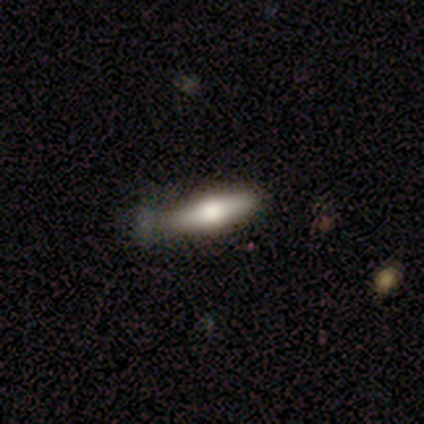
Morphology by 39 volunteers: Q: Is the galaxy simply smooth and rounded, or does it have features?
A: smooth — 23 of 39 (59%).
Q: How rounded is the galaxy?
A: cigar-shaped — 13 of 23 (57%).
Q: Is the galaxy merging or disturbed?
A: none — 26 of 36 (72%).